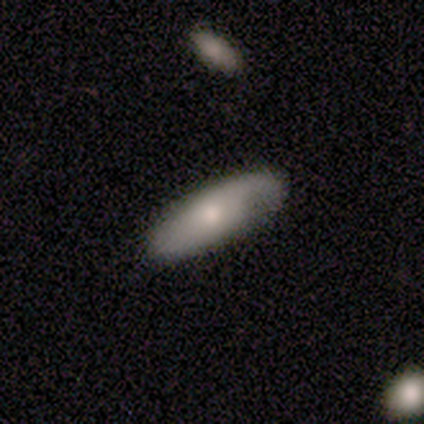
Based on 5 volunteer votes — Morphology: type=smooth (60%); roundness=in between (100%); merging=none (80%).